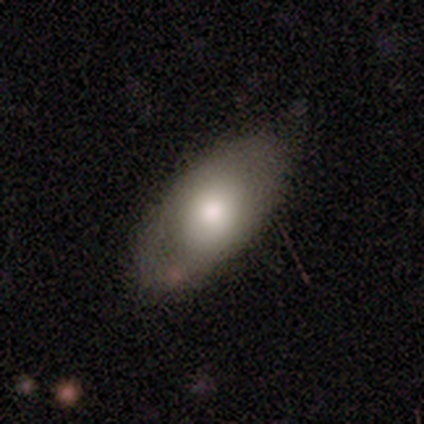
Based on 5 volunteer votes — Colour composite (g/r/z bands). It shows a smooth galaxy with no disk features (80%) that is in between round and cigar-shaped (100%). Merging: none (60%).